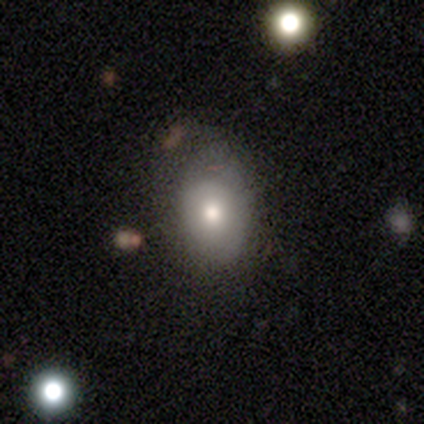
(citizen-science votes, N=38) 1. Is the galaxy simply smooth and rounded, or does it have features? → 71% smooth, 18% featured or disk, 11% star or artifact.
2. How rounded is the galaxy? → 74% in between, 22% round, 4% cigar-shaped.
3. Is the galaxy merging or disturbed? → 74% none, 24% minor disturbance, 3% merger, 0% major disturbance.